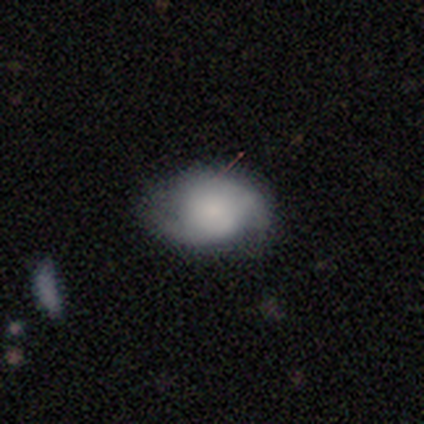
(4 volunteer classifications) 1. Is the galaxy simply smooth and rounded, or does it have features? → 75% featured or disk, 25% smooth, 0% star or artifact.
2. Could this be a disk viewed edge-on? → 100% no, 0% yes.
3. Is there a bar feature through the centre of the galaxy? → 100% no, 0% strong, 0% weak.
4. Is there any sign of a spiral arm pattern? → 100% yes, 0% no.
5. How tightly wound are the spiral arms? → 33% tight (tied), 33% medium (tied), 33% loose (tied).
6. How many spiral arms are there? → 67% 2, 33% can't tell, 0% 1, 0% 3, 0% 4, 0% more than 4.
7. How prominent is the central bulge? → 33% dominant (tied), 33% moderate (tied), 33% none (tied), 0% large, 0% small.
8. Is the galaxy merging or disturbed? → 50% none (tied), 50% minor disturbance (tied), 0% major disturbance, 0% merger.